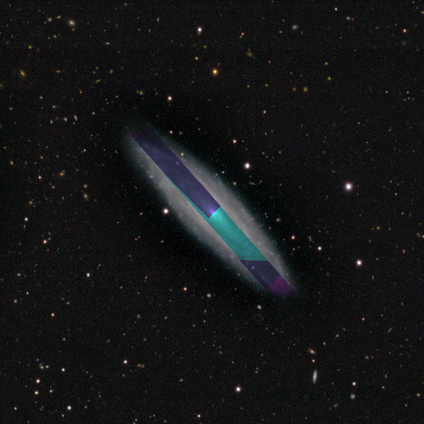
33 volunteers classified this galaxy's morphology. Volunteers were most divided on "spiral winding": medium: 56%, tight: 44%, loose: 0%. More confident: spiral arms — yes (82%); merging — none (81%); spiral arm count — can't tell (78%); bar — no (73%); bulge size — small (64%); edge-on disk — no (58%); smooth or featured — featured or disk (58%).